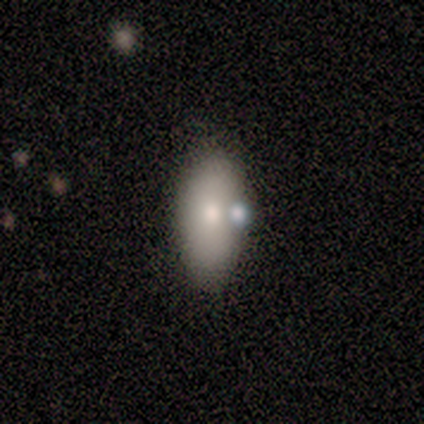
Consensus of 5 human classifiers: Smooth or featured: smooth — 80% (featured or disk — 20%)
How rounded: in between — 100%
Merging: none — 60% (minor disturbance — 20%)